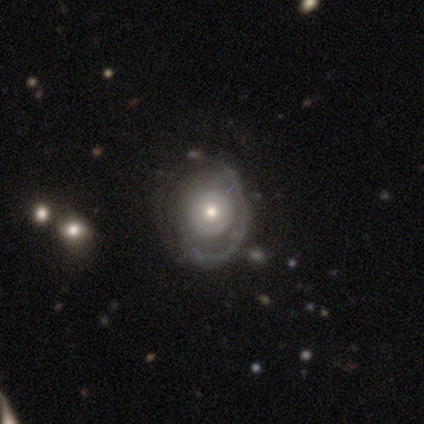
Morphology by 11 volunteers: Q: Smooth or featured?
A: featured or disk (91%); runner-up: smooth (9%)
Q: Edge-on disk?
A: no (100%)
Q: Bar?
A: no (100%)
Q: Spiral arms?
A: no (80%); runner-up: yes (20%)
Q: Bulge size?
A: moderate (50%); tied with: small (50%)
Q: Merging?
A: none (82%); runner-up: minor disturbance (9%)